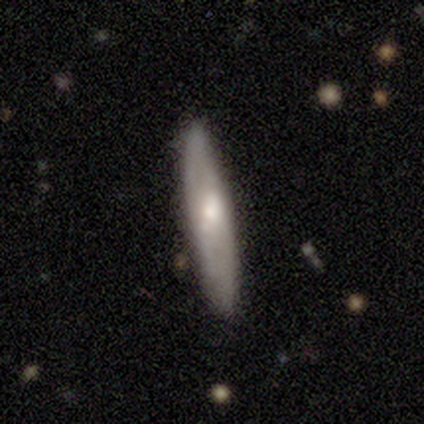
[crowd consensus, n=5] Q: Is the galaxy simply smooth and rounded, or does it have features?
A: smooth — 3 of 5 (60%).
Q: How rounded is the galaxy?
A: cigar-shaped — 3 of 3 (100%).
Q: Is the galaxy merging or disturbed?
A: none — 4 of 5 (80%).